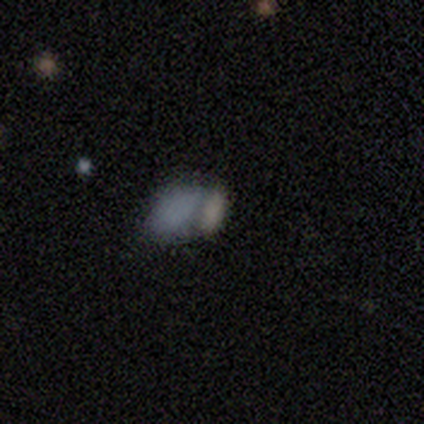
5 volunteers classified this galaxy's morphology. A smooth galaxy with no disk features (40%, tied with featured or disk) that is in between round and cigar-shaped (100%).

Vote fractions:
- Smooth or featured? smooth: 40% (tied) / featured or disk: 40% (tied) / star or artifact: 20%
- How rounded? in between: 100% / round: 0% / cigar-shaped: 0%
- Merging? merger: 75% / none: 25% / minor disturbance: 0% / major disturbance: 0%